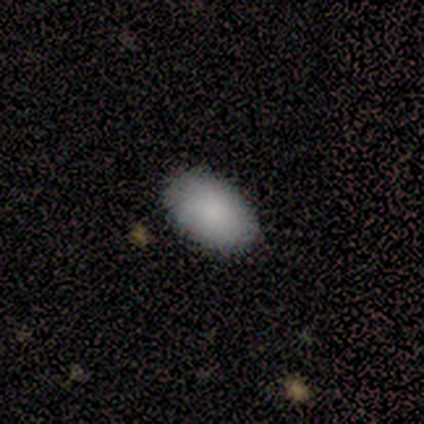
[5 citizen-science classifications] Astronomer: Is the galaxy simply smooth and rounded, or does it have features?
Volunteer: smooth — 100%.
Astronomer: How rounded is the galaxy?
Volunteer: in between — 100%.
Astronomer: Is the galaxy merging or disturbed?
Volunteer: none — 80%.